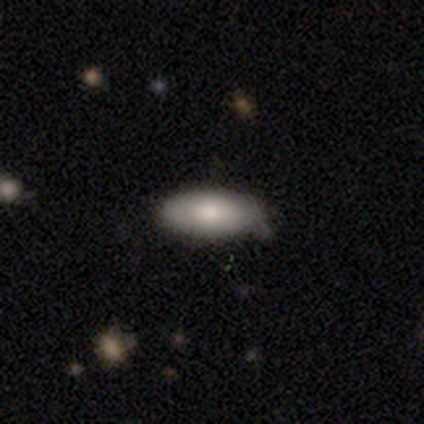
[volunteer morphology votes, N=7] Smooth or featured?
  - smooth: 71% *
  - featured or disk: 29%
  - star or artifact: 0%
How rounded?
  - in between: 100% *
  - round: 0%
  - cigar-shaped: 0%
Merging?
  - none: 57% *
  - minor disturbance: 43%
  - major disturbance: 0%
  - merger: 0%